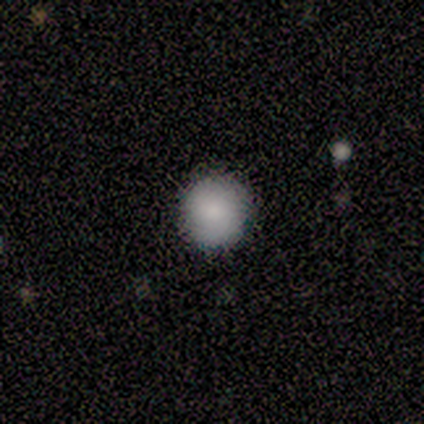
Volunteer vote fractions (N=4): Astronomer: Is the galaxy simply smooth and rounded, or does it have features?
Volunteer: smooth — 100%.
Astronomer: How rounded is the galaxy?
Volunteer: round — 100%.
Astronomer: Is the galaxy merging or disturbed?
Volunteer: none — 75%.